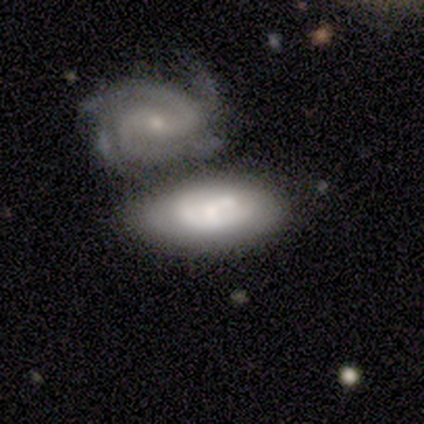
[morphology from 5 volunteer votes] Volunteers were most divided on "bar" (2-way tie): weak: 50%, no: 50%, strong: 0%; "spiral arms" (2-way tie): yes: 50%, no: 50%. More confident: edge-on disk — no (100%); spiral winding — tight (100%); spiral arm count — 4 (100%); smooth or featured — featured or disk (80%); merging — merger (60%); bulge size — none (50%).